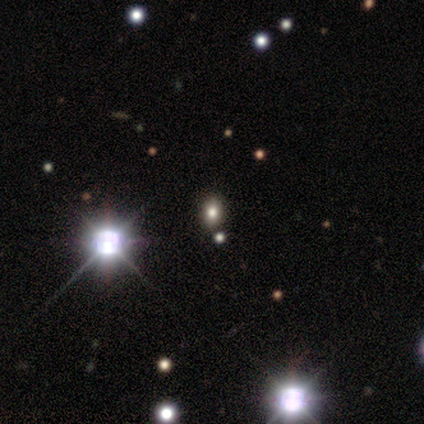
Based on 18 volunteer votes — Overall: smooth (61%; star or artifact 33%). How rounded: in between (73%). Merging: none (92%).